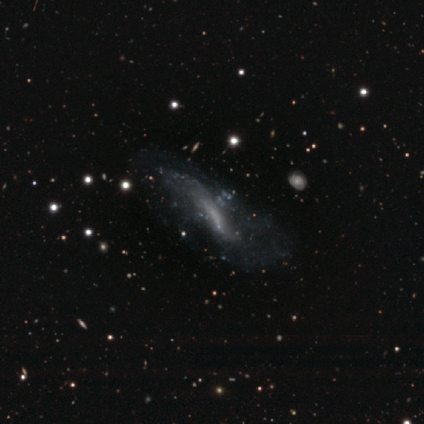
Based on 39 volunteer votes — Smooth or featured? featured or disk (64%)
Edge-on disk? no (80%)
Bar? no (65%)
Spiral arms? no (65%)
Bulge size? none (100%)
Merging? none (45%)